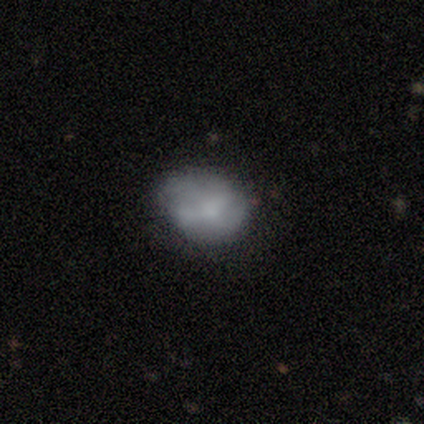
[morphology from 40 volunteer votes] Smooth or featured: smooth — 50% (featured or disk — 35%)
How rounded: in between — 60% (round — 40%)
Merging: none — 56% (minor disturbance — 29%)